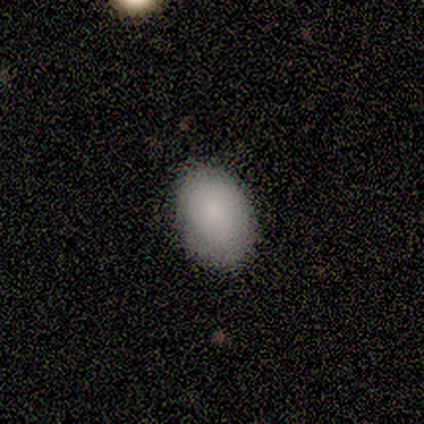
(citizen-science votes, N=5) Overall: smooth (100%). How rounded: in between (80%). Merging: none (100%).